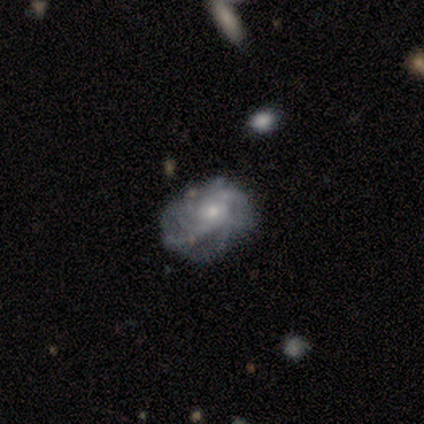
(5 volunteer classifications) featured or disk 100%, smooth 0%, star or artifact 0%. Down the decision tree: edge-on disk — no (100%); bar — no (100%); spiral arms — yes (80%); spiral arm count — can't tell (50%); spiral winding — medium (50%); bulge size — small (60%); merging — none (80%).